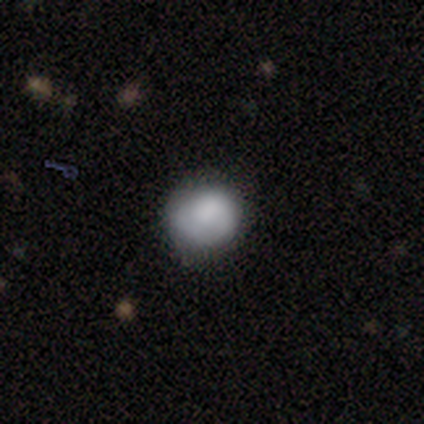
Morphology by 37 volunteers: type=smooth (76%); roundness=round (96%); merging=none (71%).